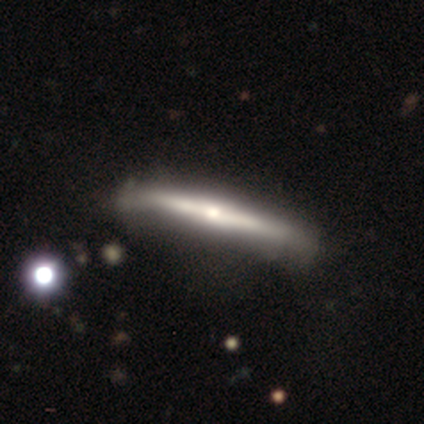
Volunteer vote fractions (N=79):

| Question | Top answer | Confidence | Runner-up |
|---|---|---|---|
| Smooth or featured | featured or disk | 66% | smooth (27%) |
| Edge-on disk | yes | 96% | no (4%) |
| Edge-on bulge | rounded | 82% | none (12%) |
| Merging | none | 64% | minor disturbance (12%) |